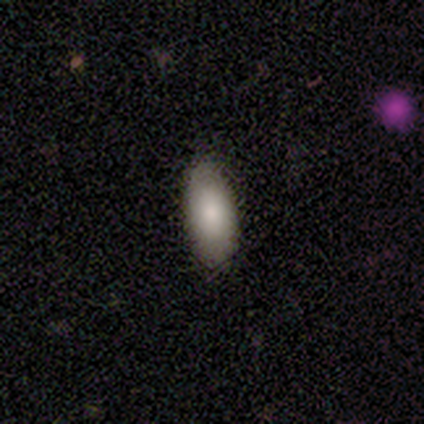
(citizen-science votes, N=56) Overall: smooth (82%). How rounded: in between (89%). Merging: none (91%).